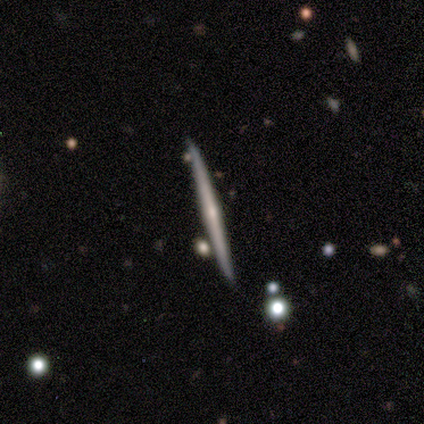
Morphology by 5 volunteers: This is clearly a featured or disk galaxy (100%). It is clearly viewed edge-on (100%). Edge-on bulge: clearly rounded (80%). Merging: likely none (60%).